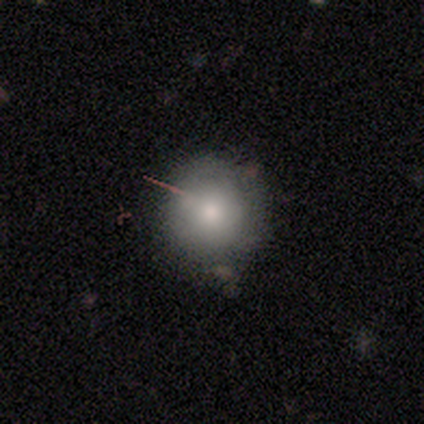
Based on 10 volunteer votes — Smooth or featured?
  - smooth: 60% *
  - star or artifact: 30%
  - featured or disk: 10%
How rounded?
  - round: 83% *
  - in between: 17%
  - cigar-shaped: 0%
Merging?
  - none: 71% *
  - minor disturbance: 29%
  - major disturbance: 0%
  - merger: 0%